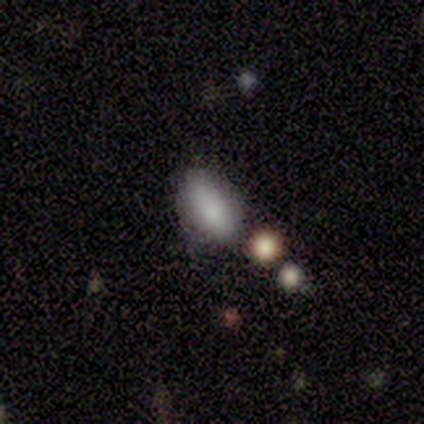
Smooth or featured: smooth — 79% (featured or disk — 16%)
How rounded: in between — 93% (round — 3%)
Merging: none — 72% (merger — 14%)